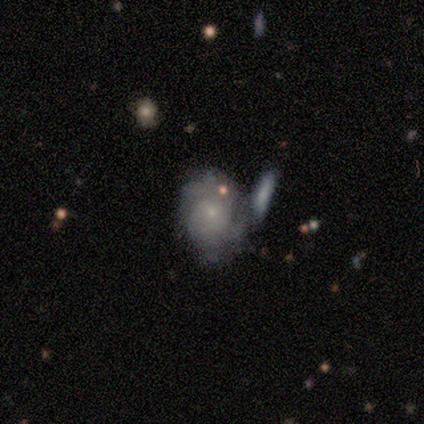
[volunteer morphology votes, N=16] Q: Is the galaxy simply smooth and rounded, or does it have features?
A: featured or disk — 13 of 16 (81%).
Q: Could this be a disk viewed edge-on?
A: no — 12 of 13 (92%).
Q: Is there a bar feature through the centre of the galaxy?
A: no — 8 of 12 (67%).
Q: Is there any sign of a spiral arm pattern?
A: yes — 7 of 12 (58%).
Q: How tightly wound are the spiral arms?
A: tight — 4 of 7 (57%).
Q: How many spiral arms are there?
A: can't tell — 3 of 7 (43%).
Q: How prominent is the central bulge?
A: small — 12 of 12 (100%).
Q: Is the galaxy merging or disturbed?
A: none — 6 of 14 (43%, tied with merger).